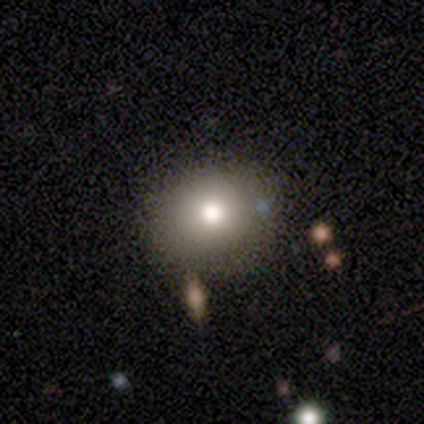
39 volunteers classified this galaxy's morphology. Smooth or featured?
  - smooth: 74% *
  - featured or disk: 13%
  - star or artifact: 13%
How rounded?
  - round: 86% *
  - in between: 14%
  - cigar-shaped: 0%
Merging?
  - none: 76% *
  - minor disturbance: 21%
  - major disturbance: 3%
  - merger: 0%